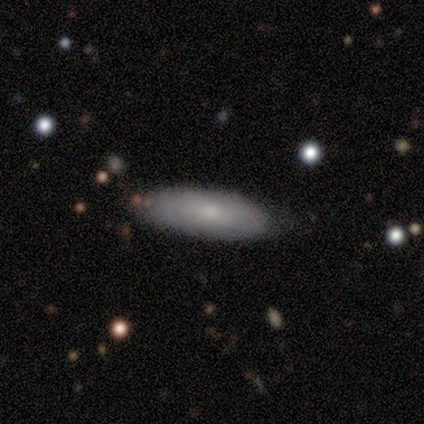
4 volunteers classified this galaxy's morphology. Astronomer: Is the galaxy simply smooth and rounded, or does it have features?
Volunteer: featured or disk — 75%.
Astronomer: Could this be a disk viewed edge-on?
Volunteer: yes — 67%.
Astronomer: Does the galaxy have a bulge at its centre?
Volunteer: rounded — 100%.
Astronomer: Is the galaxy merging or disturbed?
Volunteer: none — 100%.